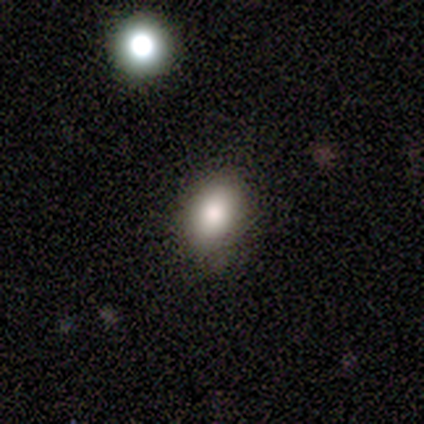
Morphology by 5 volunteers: smooth_or_featured: smooth (p=0.80) [alt: star or artifact p=0.20]
how_rounded: in between (p=0.75) [alt: round p=0.25]
merging: none (p=0.75) [alt: minor disturbance p=0.25]